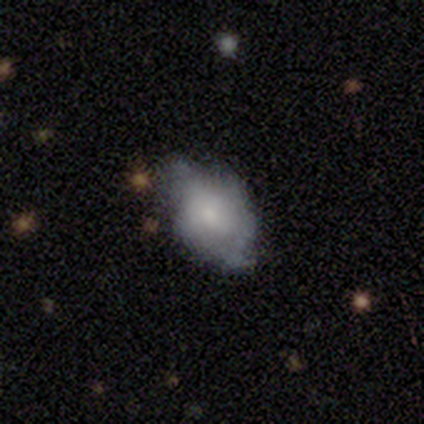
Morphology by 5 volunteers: Overall: smooth (100%). How rounded: in between (100%). Merging: minor disturbance (80%).